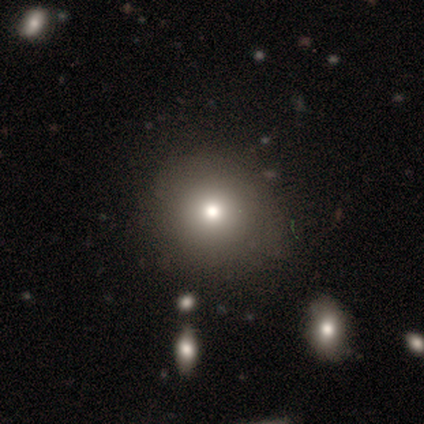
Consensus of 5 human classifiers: Overall: smooth (40%, tied with star or artifact). How rounded: round (100%). Merging: none (67%; major disturbance 33%).